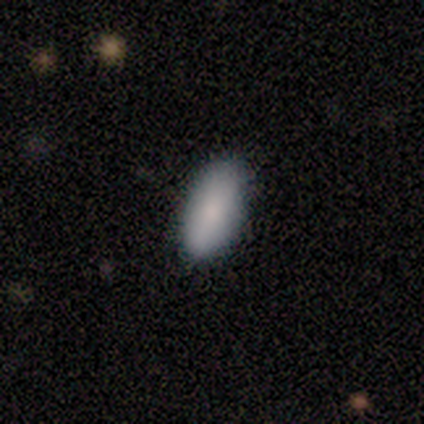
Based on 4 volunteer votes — A smooth galaxy with no disk features (100%) that is in between round and cigar-shaped (75%). Merging: none (100%).